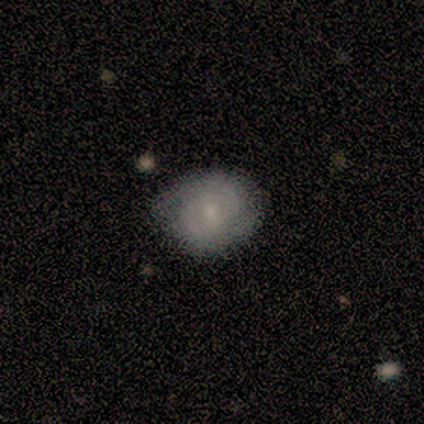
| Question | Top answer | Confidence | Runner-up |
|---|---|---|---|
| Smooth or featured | featured or disk | 60% | smooth (40%) |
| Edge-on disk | no | 100% | — |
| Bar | no | 67% | weak (33%) |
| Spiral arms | yes | 100% | — |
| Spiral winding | tight | 100% | — |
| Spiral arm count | can't tell | 67% | 2 (33%) |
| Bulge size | moderate | 33% | tied: small (33%), none (33%) |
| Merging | none | 60% | minor disturbance (20%) |